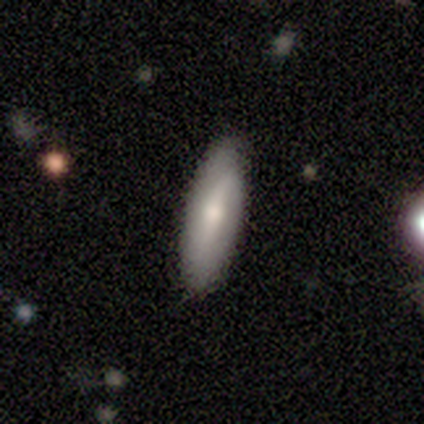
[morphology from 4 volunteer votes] smooth-or-featured: smooth: 50% (tied) | featured or disk: 50% (tied) | star or artifact: 0%
  how-rounded: round: 50% (tied) | in between: 50% (tied) | cigar-shaped: 0%
  merging: none: 100% | minor disturbance: 0% | major disturbance: 0% | merger: 0%